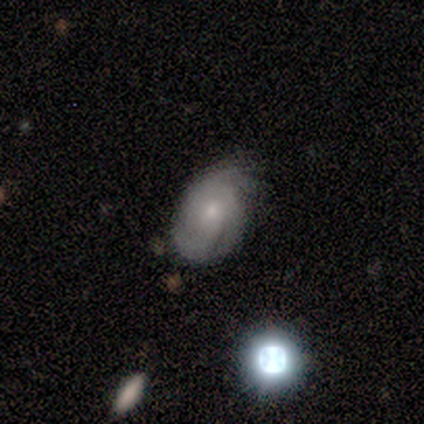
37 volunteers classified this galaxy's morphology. smooth_or_featured: featured or disk (p=0.65) [alt: smooth p=0.27]
disk_edge_on: no (p=1.00)
bar: no (p=0.79) [alt: weak p=0.21]
has_spiral_arms: yes (p=1.00)
spiral_winding: tight (p=0.54) [alt: medium p=0.25]
spiral_arm_count: 3 (p=0.42) [alt: can't tell p=0.38]
bulge_size: small (p=0.67) [alt: moderate p=0.33]
merging: none (p=0.74) [alt: minor disturbance p=0.24]